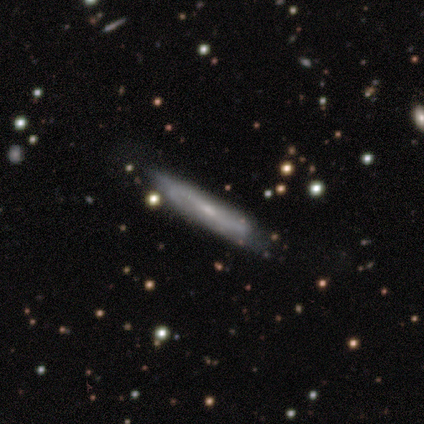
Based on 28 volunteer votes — Overall: featured or disk (57%; smooth 32%). Edge-on disk: yes (62%; no 38%). Edge-on bulge: none (40%, tied with rounded). Merging: none (72%).